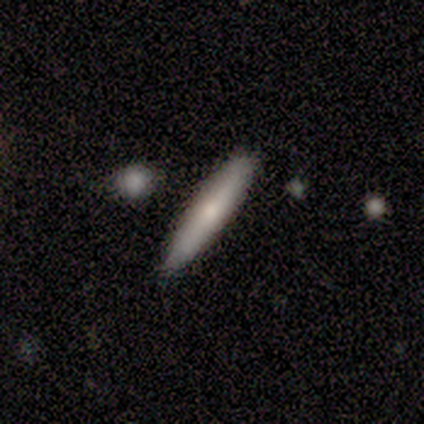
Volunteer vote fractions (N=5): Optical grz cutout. It shows a smooth galaxy with no disk features (80%) that is cigar-shaped (100%). Merging: none (60%).